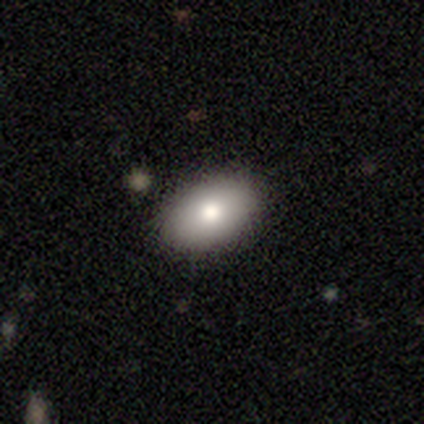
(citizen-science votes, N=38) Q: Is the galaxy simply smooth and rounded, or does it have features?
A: smooth — 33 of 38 (87%).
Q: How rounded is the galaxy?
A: in between — 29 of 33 (88%).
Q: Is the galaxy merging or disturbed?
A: none — 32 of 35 (91%).